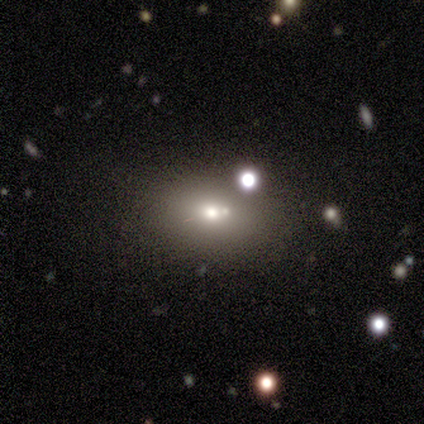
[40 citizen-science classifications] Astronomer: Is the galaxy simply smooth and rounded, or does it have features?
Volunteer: smooth — 62%.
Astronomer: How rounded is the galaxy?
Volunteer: in between — 92%.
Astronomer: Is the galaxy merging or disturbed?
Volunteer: none — 50% (runner-up: merger, 26%).